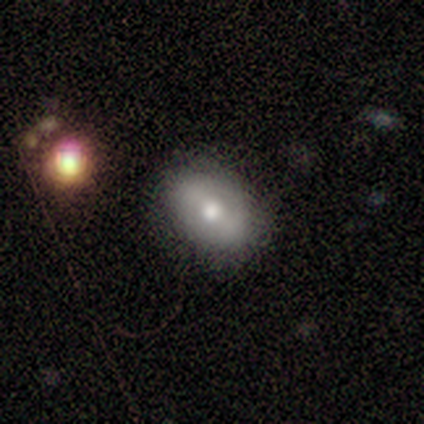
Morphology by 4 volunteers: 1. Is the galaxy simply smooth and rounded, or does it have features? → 75% smooth, 25% featured or disk, 0% star or artifact.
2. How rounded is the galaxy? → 100% in between, 0% round, 0% cigar-shaped.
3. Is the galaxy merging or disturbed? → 50% none (tied), 50% minor disturbance (tied), 0% major disturbance, 0% merger.